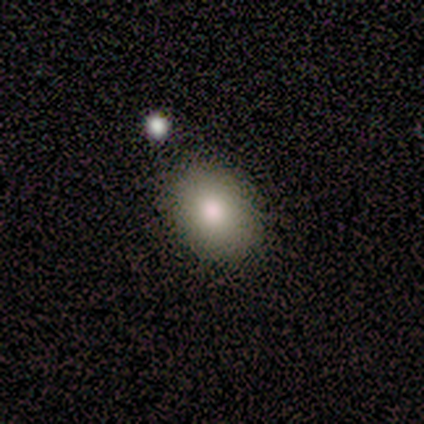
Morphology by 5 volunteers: Q: Smooth or featured?
A: featured or disk (40%); tied with: star or artifact (40%)
Q: Edge-on disk?
A: no (100%)
Q: Bar?
A: no (100%)
Q: Spiral arms?
A: no (100%)
Q: Bulge size?
A: large (50%); tied with: moderate (50%)
Q: Merging?
A: none (100%)